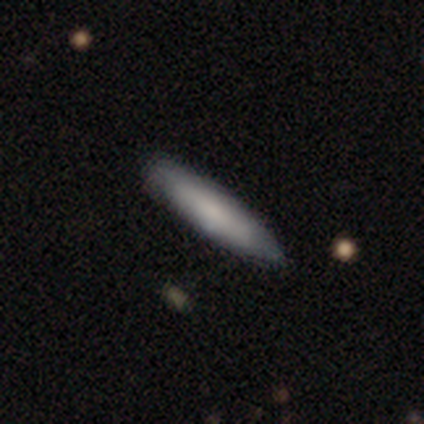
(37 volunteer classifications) Smooth or featured? 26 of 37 (70%) said smooth. How rounded? 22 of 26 (85%) said cigar-shaped. Merging? 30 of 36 (83%) said none.